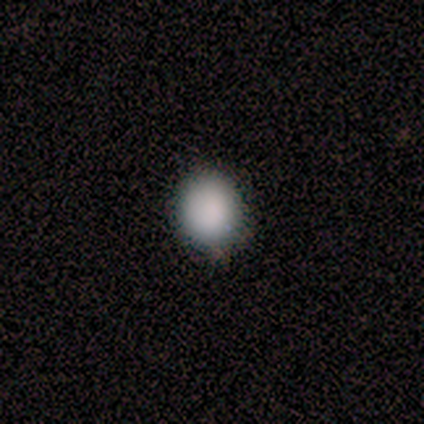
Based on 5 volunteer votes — Smooth or featured?
  - smooth: 100% *
  - featured or disk: 0%
  - star or artifact: 0%
How rounded?
  - round: 80% *
  - in between: 20%
  - cigar-shaped: 0%
Merging?
  - none: 60% *
  - minor disturbance: 40%
  - major disturbance: 0%
  - merger: 0%